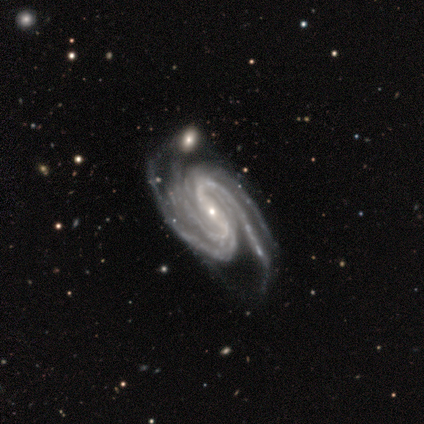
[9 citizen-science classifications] featured or disk 89%, star or artifact 11%, smooth 0%. Down the decision tree: edge-on disk — no (100%); bar — strong (62%); spiral arms — yes (100%); spiral arm count — 4 (50%); spiral winding — tight (62%); bulge size — small (62%); merging — none (62%).